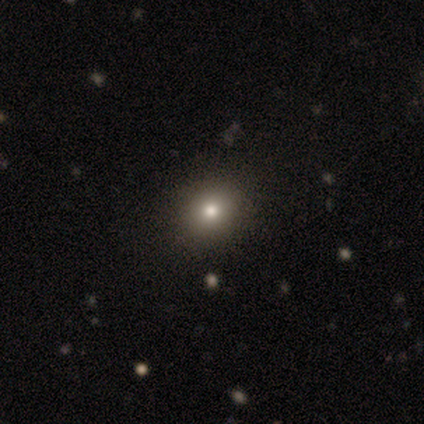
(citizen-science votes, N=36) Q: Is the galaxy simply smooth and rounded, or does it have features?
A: smooth — 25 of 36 (69%).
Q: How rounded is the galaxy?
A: round — 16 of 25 (64%).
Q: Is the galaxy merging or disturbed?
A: none — 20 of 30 (67%).